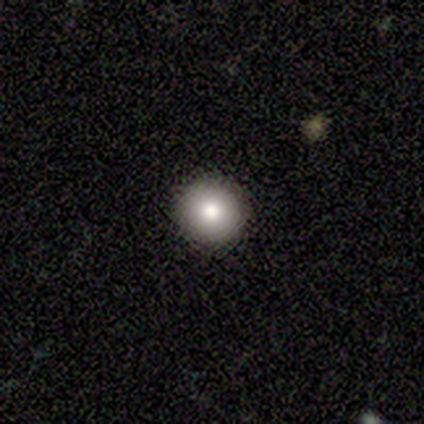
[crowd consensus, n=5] Smooth or featured? 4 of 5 (80%) said smooth. How rounded? 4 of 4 (100%) said round. Merging? 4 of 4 (100%) said none.